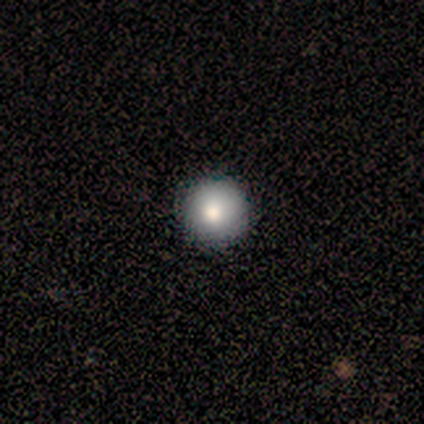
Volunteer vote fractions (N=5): smooth-or-featured: smooth: 80% | featured or disk: 20% | star or artifact: 0%
  how-rounded: round: 100% | in between: 0% | cigar-shaped: 0%
  merging: none: 100% | minor disturbance: 0% | major disturbance: 0% | merger: 0%